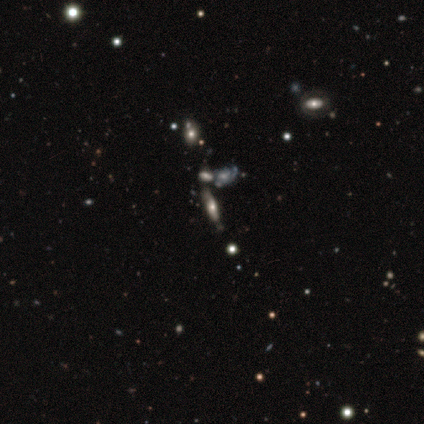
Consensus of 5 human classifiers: A featured or disk galaxy (60%) viewed edge-on (100%) with a rounded central bulge (100%).

Vote fractions:
- Smooth or featured? featured or disk: 60% / smooth: 20% / star or artifact: 20%
- Edge-on disk? yes: 100% / no: 0%
- Edge-on bulge? rounded: 100% / boxy: 0% / none: 0%
- Merging? minor disturbance: 50% (tied) / merger: 50% (tied) / none: 0% / major disturbance: 0%